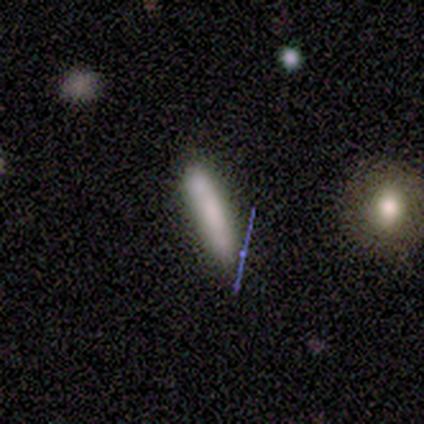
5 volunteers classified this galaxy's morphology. Volunteers were most divided on "smooth or featured": smooth: 60%, star or artifact: 40%, featured or disk: 0%. More confident: how rounded — cigar-shaped (100%); merging — none (100%).